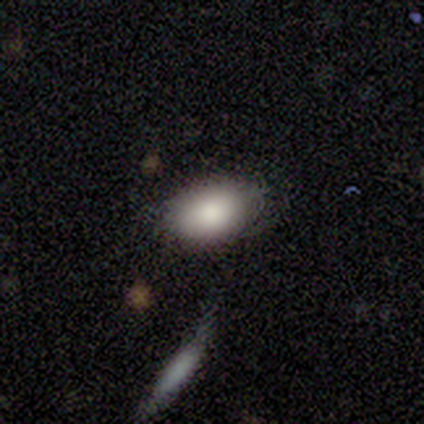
Overall: smooth (60%; featured or disk 20%). How rounded: in between (100%). Merging: none (100%).